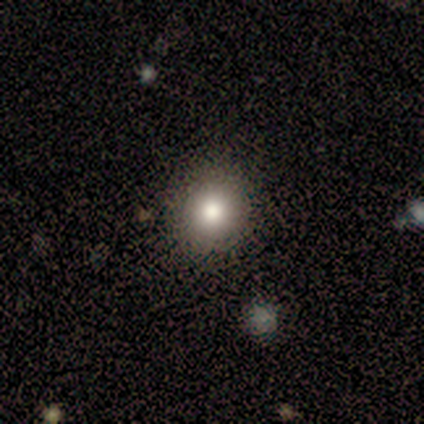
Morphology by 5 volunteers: Consensus on every question: smooth or featured — smooth (100%); how rounded — round (100%); merging — none (100%).